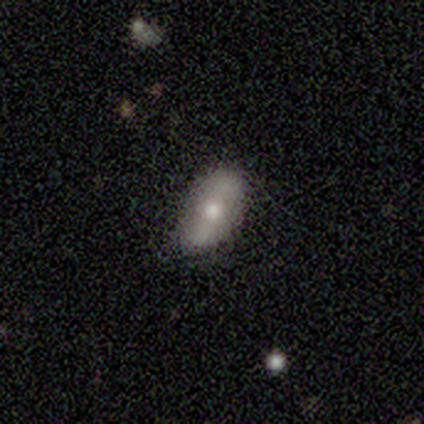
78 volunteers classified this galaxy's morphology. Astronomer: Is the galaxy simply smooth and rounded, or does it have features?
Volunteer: smooth — 60% (runner-up: featured or disk, 36%).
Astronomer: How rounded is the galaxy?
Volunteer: in between — 96%.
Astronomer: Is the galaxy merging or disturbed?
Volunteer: none — 44%.